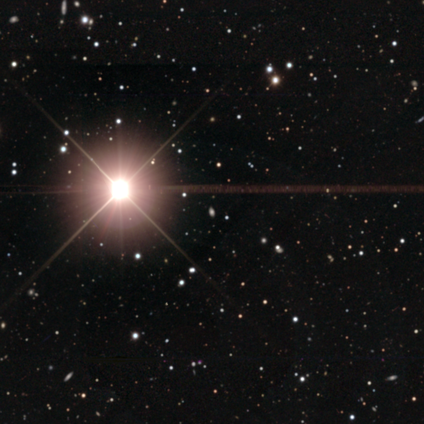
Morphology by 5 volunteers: smooth_or_featured: star or artifact (p=0.80) [alt: smooth p=0.20]